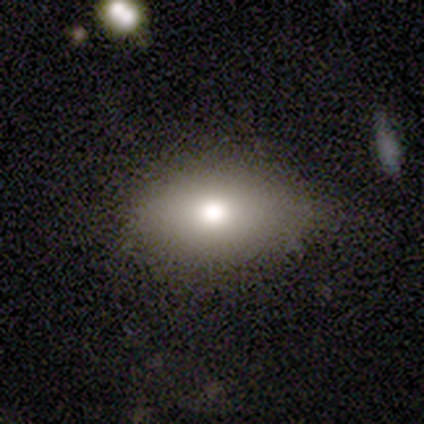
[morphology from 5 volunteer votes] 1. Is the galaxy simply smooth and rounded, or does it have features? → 80% smooth, 20% featured or disk, 0% star or artifact.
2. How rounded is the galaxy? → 50% round (tied), 50% in between (tied), 0% cigar-shaped.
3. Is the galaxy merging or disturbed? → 60% none, 20% minor disturbance, 20% major disturbance, 0% merger.